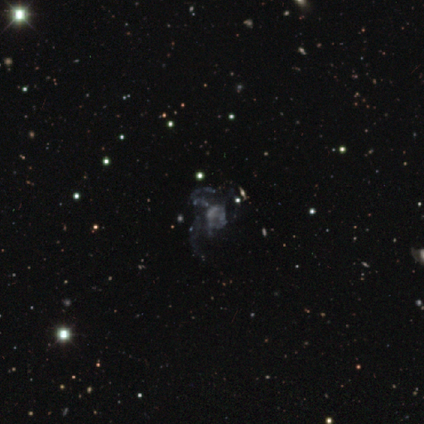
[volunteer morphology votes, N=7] star or artifact 71%, featured or disk 29%, smooth 0%.